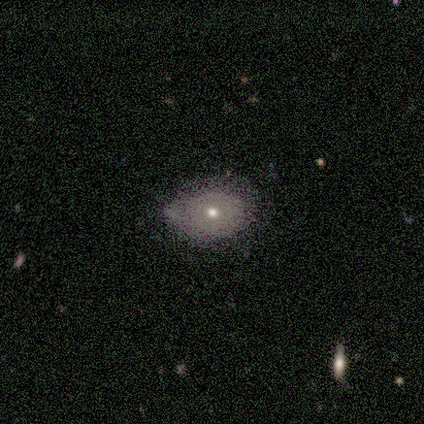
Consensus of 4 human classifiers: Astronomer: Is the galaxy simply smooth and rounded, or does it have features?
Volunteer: smooth — 100%.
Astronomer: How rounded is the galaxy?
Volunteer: round — 50%, tied with in between at 50%.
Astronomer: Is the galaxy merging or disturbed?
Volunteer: none — 100%.